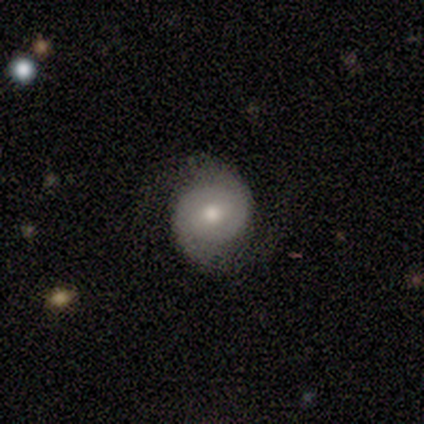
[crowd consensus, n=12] Smooth or featured? featured or disk (75%)
Edge-on disk? no (100%)
Bar? no (78%)
Spiral arms? yes (100%)
Spiral winding? medium (44%)
Spiral arm count? 2 (100%)
Bulge size? moderate (78%)
Merging? none (100%)